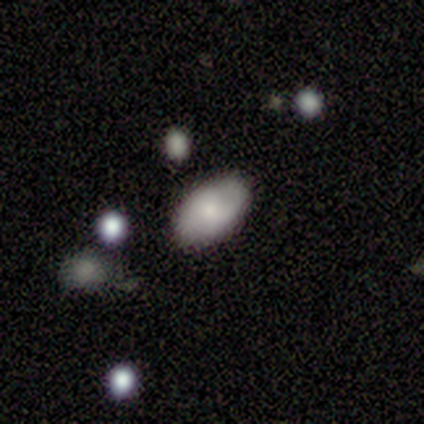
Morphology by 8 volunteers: Smooth or featured?
  - smooth: 62% *
  - featured or disk: 25%
  - star or artifact: 12%
How rounded?
  - in between: 100% *
  - round: 0%
  - cigar-shaped: 0%
Merging?
  - none: 100% *
  - minor disturbance: 0%
  - major disturbance: 0%
  - merger: 0%